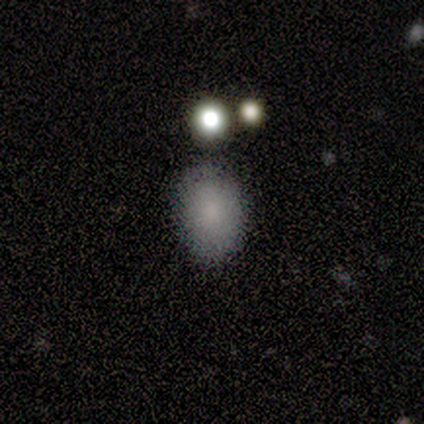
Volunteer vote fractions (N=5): Smooth or featured? 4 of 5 (80%) said smooth. How rounded? 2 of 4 (50%, tied with in between) said round. Merging? 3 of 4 (75%) said none.